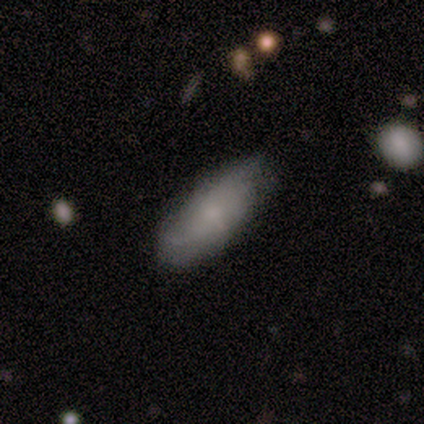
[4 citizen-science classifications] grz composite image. It shows a smooth galaxy with no disk features (75%) that is in between round and cigar-shaped (67%). Merging: none (50%, tied with minor disturbance).